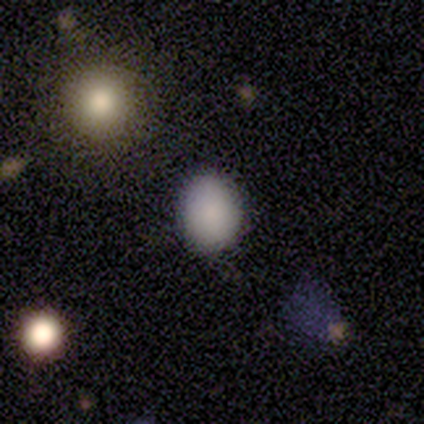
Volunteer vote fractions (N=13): Smooth or featured? smooth (62%)
How rounded? in between (62%)
Merging? none (89%)